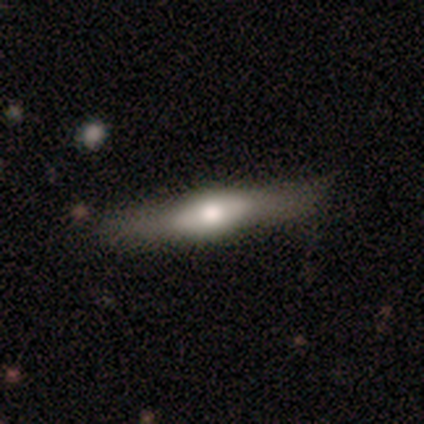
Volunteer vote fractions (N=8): Smooth or featured? 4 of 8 (50%, tied with featured or disk) said smooth. How rounded? 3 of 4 (75%) said cigar-shaped. Merging? 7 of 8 (88%) said none.